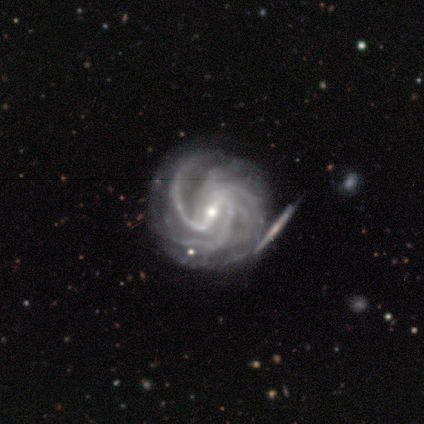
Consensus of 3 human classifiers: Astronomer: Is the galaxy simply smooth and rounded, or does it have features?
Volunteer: featured or disk — 67%.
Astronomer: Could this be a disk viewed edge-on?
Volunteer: no — 100%.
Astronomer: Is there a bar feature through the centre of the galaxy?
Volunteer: strong — 100%.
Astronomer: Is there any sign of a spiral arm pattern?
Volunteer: yes — 100%.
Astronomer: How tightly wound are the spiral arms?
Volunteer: tight — 50%, tied with medium at 50%.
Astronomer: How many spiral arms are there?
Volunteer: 3 — 50%, tied with more than 4 at 50%.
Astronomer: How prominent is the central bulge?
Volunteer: moderate — 50%, tied with small at 50%.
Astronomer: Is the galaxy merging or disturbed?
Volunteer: none — 100%.